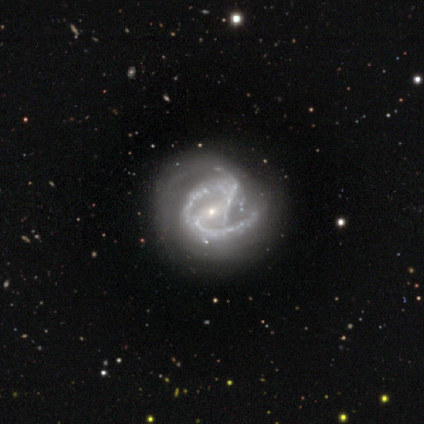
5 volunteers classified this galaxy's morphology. smooth_or_featured: featured or disk (p=1.00)
disk_edge_on: no (p=1.00)
bar: strong (p=0.40) [tied with: weak p=0.40]
has_spiral_arms: yes (p=1.00)
spiral_winding: medium (p=0.80) [alt: tight p=0.20]
spiral_arm_count: 2 (p=0.80) [alt: can't tell p=0.20]
bulge_size: small (p=0.80) [alt: moderate p=0.20]
merging: none (p=0.60) [alt: minor disturbance p=0.20]